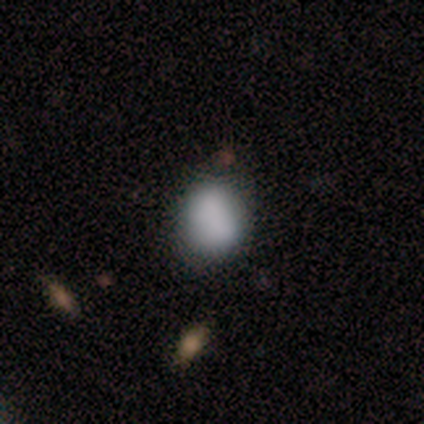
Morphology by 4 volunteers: Smooth or featured?
  - smooth: 75% *
  - star or artifact: 25%
  - featured or disk: 0%
How rounded?
  - round: 67% *
  - in between: 33%
  - cigar-shaped: 0%
Merging?
  - none: 100% *
  - minor disturbance: 0%
  - major disturbance: 0%
  - merger: 0%